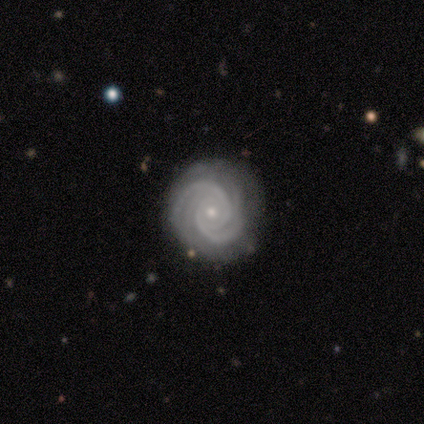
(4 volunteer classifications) Smooth or featured? 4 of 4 (100%) said featured or disk. Edge-on disk? 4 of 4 (100%) said no. Bar? 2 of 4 (50%, tied with no) said strong. Spiral arms? 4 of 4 (100%) said yes. Spiral winding? 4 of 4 (100%) said tight. Spiral arm count? 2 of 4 (50%) said 2. Bulge size? 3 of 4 (75%) said small. Merging? 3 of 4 (75%) said none.